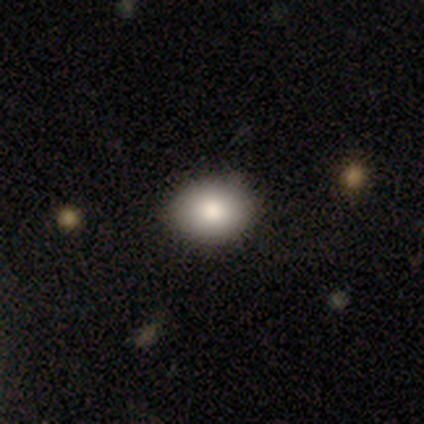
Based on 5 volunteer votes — Smooth or featured: smooth — 80% (star or artifact — 20%)
How rounded: round — 75% (in between — 25%)
Merging: none — 50% (tied with minor disturbance — 50%)